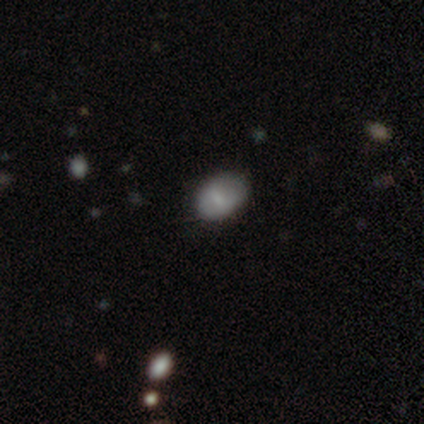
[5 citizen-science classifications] A smooth galaxy with no disk features (100%) that is in between round and cigar-shaped (80%).

Vote fractions:
- Smooth or featured? smooth: 100% / featured or disk: 0% / star or artifact: 0%
- How rounded? in between: 80% / round: 20% / cigar-shaped: 0%
- Merging? none: 100% / minor disturbance: 0% / major disturbance: 0% / merger: 0%